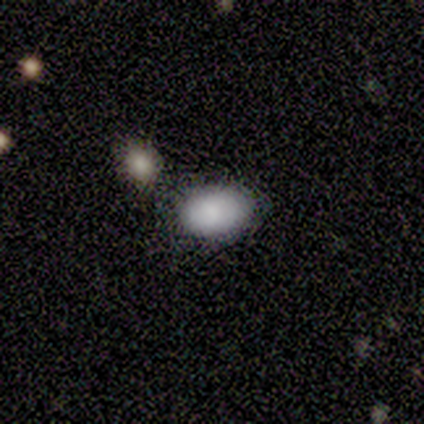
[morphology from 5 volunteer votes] smooth 80%, star or artifact 20%, featured or disk 0%. Down the decision tree: how rounded — in between (100%); merging — none (75%).